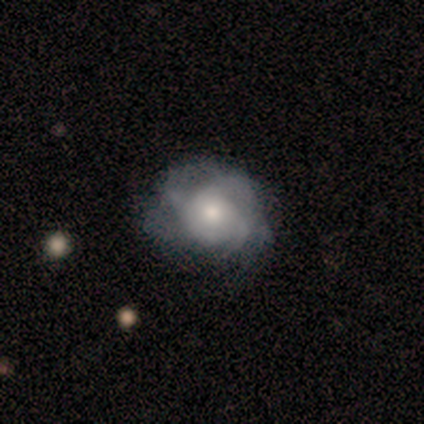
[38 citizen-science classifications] Smooth or featured: featured or disk — 61% (smooth — 37%)
Edge-on disk: no — 100%
Bar: no — 91% (strong — 4%)
Spiral arms: yes — 83% (no — 17%)
Spiral winding: tight — 47% (medium — 37%)
Spiral arm count: can't tell — 47% (3 — 37%)
Bulge size: moderate — 70% (small — 17%)
Merging: none — 41% (tied with minor disturbance — 41%)